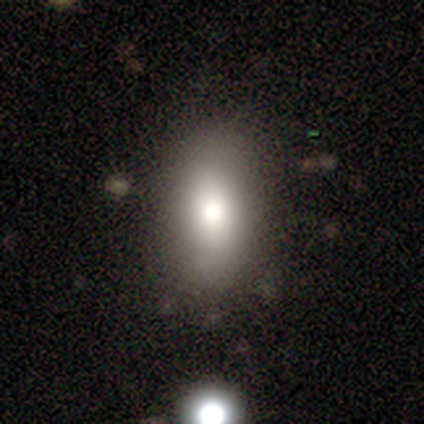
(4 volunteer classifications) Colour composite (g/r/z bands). It shows a smooth galaxy with no disk features (75%) that is in between round and cigar-shaped (67%). Merging: none (50%, tied with minor disturbance).